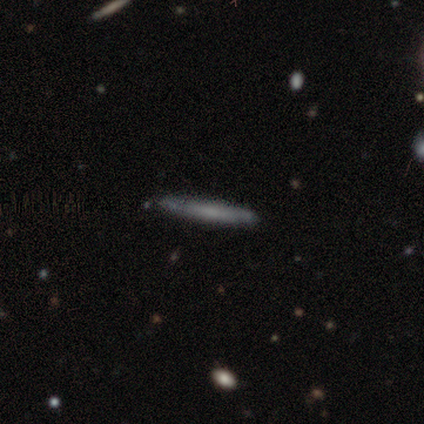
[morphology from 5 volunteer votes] Smooth or featured: smooth — 80% (featured or disk — 20%)
How rounded: cigar-shaped — 100%
Merging: none — 100%